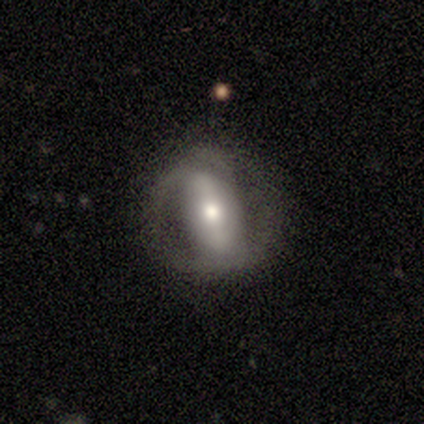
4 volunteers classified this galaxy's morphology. A featured or disk galaxy (100%) with a strong bar (75%), no spiral arms (75%) and a moderate central bulge (50%).

Vote fractions:
- Smooth or featured? featured or disk: 100% / smooth: 0% / star or artifact: 0%
- Edge-on disk? no: 100% / yes: 0%
- Bar? strong: 75% / weak: 25% / no: 0%
- Spiral arms? no: 75% / yes: 25%
- Bulge size? moderate: 50% / large: 25% / small: 25% / dominant: 0% / none: 0%
- Merging? none: 75% / major disturbance: 25% / minor disturbance: 0% / merger: 0%